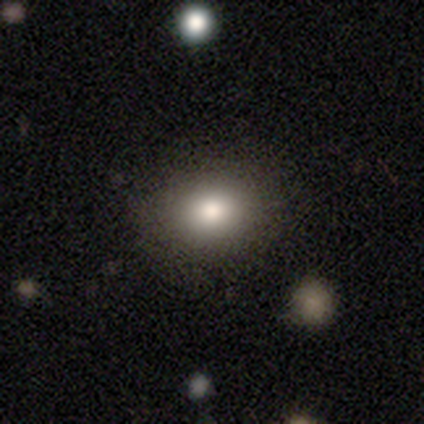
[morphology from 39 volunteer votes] smooth 92%, star or artifact 5%, featured or disk 3%. Down the decision tree: how rounded — round (61%); merging — none (95%).